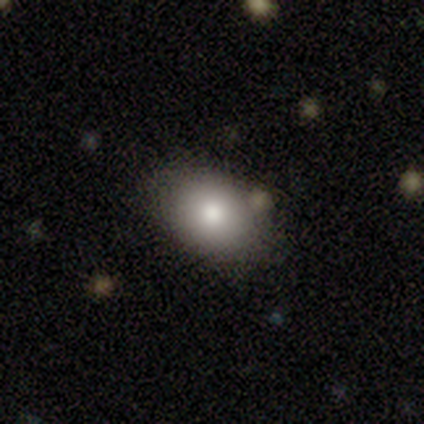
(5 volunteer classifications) Smooth or featured? smooth (60%)
How rounded? round (67%)
Merging? none (75%)